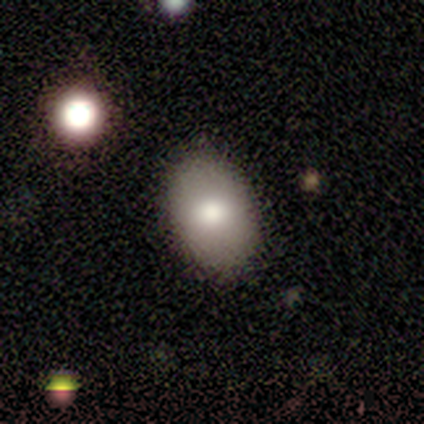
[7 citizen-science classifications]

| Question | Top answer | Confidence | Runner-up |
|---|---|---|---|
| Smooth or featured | smooth | 86% | featured or disk (14%) |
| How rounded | in between | 100% | — |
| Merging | none | 100% | — |